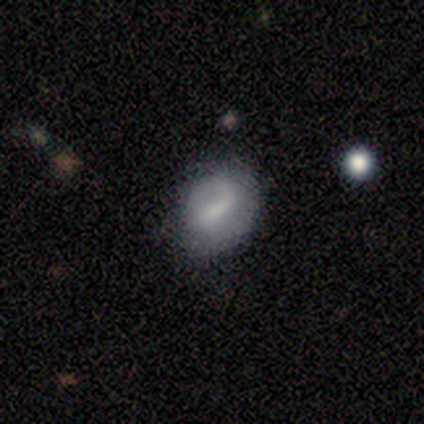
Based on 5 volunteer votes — Volunteers were most divided on "smooth or featured": featured or disk: 60%, smooth: 40%, star or artifact: 0%. More confident: edge-on disk — no (100%); bar — strong (67%); spiral arms — no (67%); bulge size — none (67%); merging — none (60%).